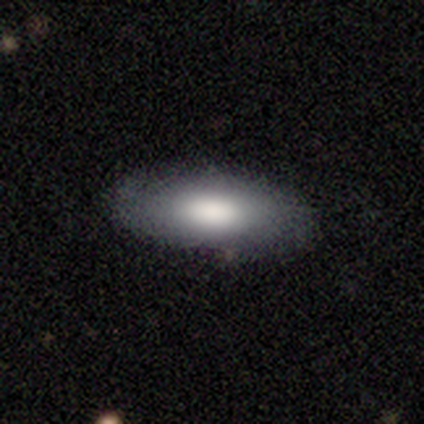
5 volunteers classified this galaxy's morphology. Smooth or featured? 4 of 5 (80%) said smooth. How rounded? 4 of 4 (100%) said in between. Merging? 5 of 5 (100%) said none.